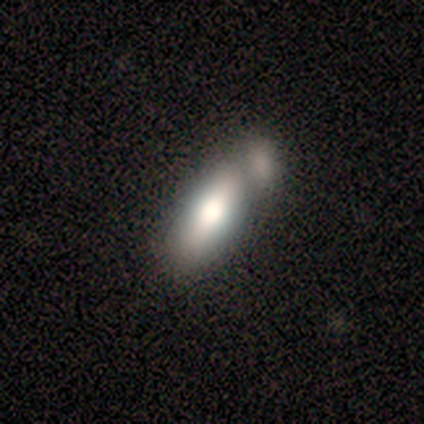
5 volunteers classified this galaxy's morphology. smooth-or-featured: featured or disk: 60% | smooth: 40% | star or artifact: 0%
  disk-edge-on: yes: 67% | no: 33%
    edge-on-bulge: rounded: 100% | boxy: 0% | none: 0%
  merging: merger: 60% | none: 20% | major disturbance: 20% | minor disturbance: 0%